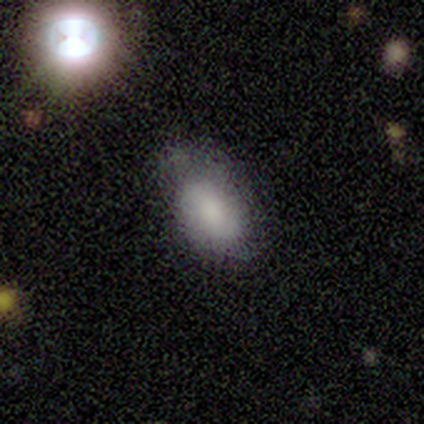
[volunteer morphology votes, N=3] Q: Smooth or featured?
A: smooth (100%)
Q: How rounded?
A: in between (67%); runner-up: round (33%)
Q: Merging?
A: minor disturbance (67%); runner-up: none (33%)